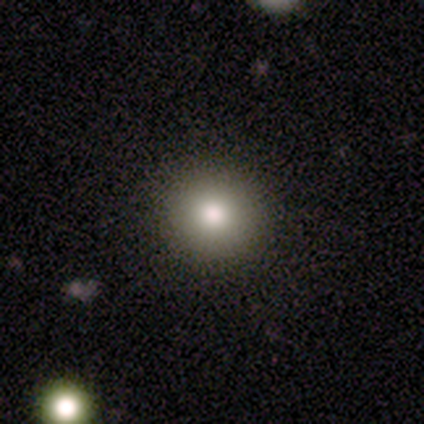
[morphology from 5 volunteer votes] smooth-or-featured: smooth: 60% | star or artifact: 40% | featured or disk: 0%
  how-rounded: round: 100% | in between: 0% | cigar-shaped: 0%
  merging: none: 100% | minor disturbance: 0% | major disturbance: 0% | merger: 0%